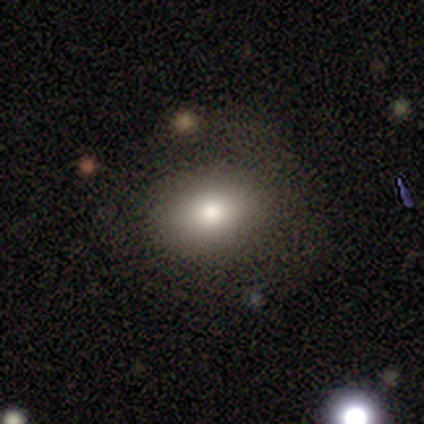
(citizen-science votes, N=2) A smooth galaxy with no disk features (50%, tied with star or artifact) that is in between round and cigar-shaped (100%). Merging: minor disturbance (100%).